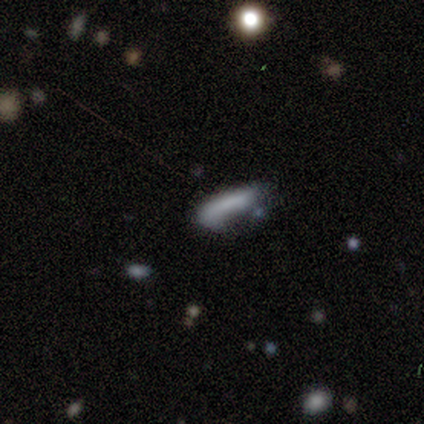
Smooth or featured? smooth (75%)
How rounded? cigar-shaped (100%)
Merging? major disturbance (50%, tied with merger)